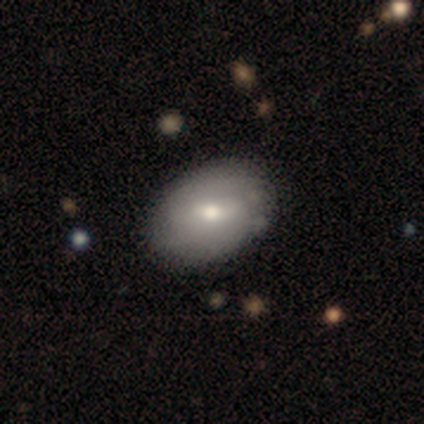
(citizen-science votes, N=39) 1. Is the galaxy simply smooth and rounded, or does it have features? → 74% smooth, 23% featured or disk, 3% star or artifact.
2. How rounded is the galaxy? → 76% in between, 24% round, 0% cigar-shaped.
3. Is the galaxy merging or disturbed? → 61% none, 11% merger, 8% minor disturbance, 3% major disturbance.